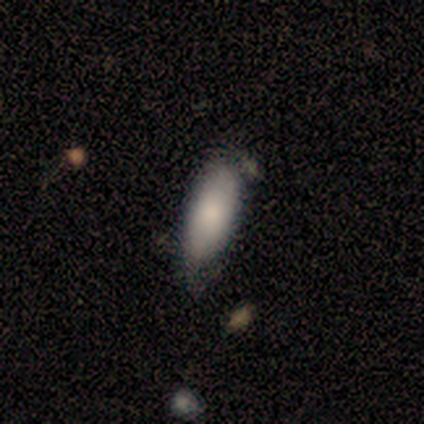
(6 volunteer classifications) This is clearly a smooth galaxy (100%). How rounded: clearly in between (100%). Merging: clearly minor disturbance (100%).